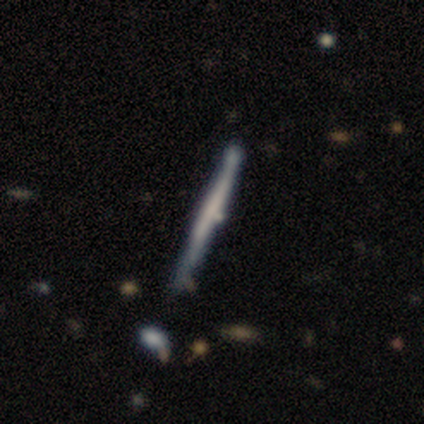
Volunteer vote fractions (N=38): smooth-or-featured: featured or disk: 66% | smooth: 34% | star or artifact: 0%
  disk-edge-on: yes: 100% | no: 0%
    edge-on-bulge: none: 76% | boxy: 20% | rounded: 4%
  merging: none: 74% | minor disturbance: 13% | merger: 8% | major disturbance: 5%